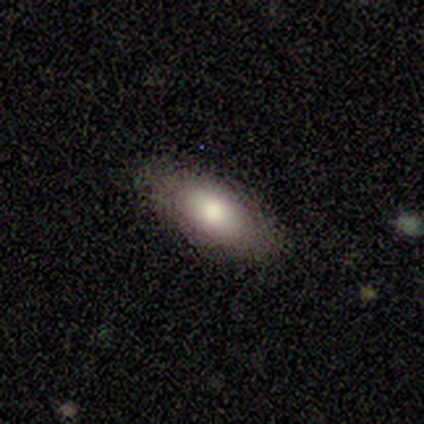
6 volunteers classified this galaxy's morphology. A smooth galaxy with no disk features (50%, tied with featured or disk) that is in between round and cigar-shaped (100%).

Vote fractions:
- Smooth or featured? smooth: 50% (tied) / featured or disk: 50% (tied) / star or artifact: 0%
- How rounded? in between: 100% / round: 0% / cigar-shaped: 0%
- Merging? none: 83% / minor disturbance: 17% / major disturbance: 0% / merger: 0%